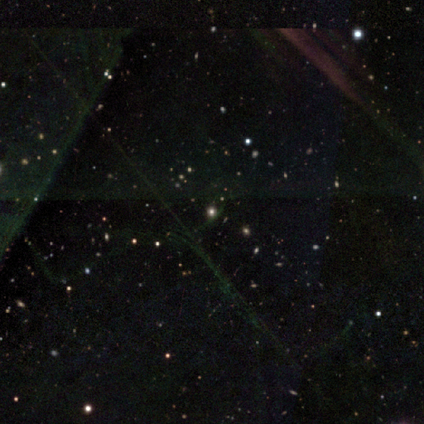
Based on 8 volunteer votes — smooth_or_featured: star or artifact (p=0.62) [alt: smooth p=0.38]